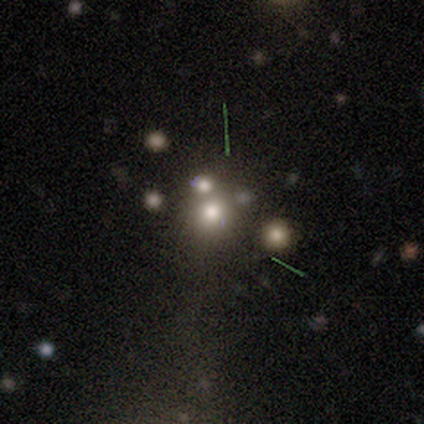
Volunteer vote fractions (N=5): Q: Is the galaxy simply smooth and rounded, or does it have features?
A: smooth — 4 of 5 (80%).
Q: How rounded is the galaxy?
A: round — 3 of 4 (75%).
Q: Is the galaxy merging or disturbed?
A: merger — 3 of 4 (75%).